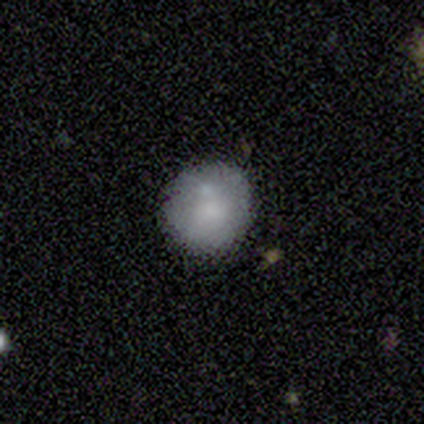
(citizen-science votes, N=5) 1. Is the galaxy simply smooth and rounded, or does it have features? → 40% smooth (tied), 40% featured or disk (tied), 20% star or artifact.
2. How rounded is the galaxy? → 100% round, 0% in between, 0% cigar-shaped.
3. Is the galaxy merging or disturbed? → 50% minor disturbance, 25% none, 25% merger, 0% major disturbance.